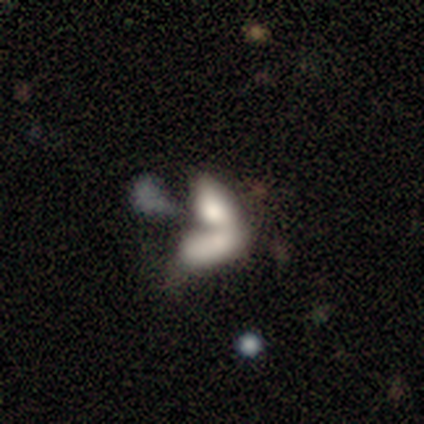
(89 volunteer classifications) Overall: smooth (47%; featured or disk 39%). How rounded: in between (95%). Merging: merger (70%).